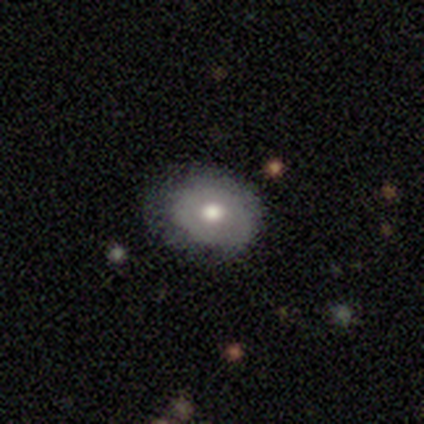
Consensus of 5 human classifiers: smooth_or_featured: smooth (p=0.60) [alt: featured or disk p=0.40]
how_rounded: in between (p=0.67) [alt: round p=0.33]
merging: none (p=0.80) [alt: minor disturbance p=0.20]